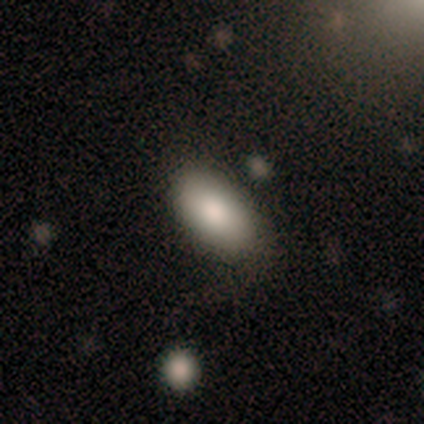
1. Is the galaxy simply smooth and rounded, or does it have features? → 60% smooth, 20% featured or disk, 20% star or artifact.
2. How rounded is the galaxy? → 100% in between, 0% round, 0% cigar-shaped.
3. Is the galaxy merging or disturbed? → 50% none (tied), 50% minor disturbance (tied), 0% major disturbance, 0% merger.